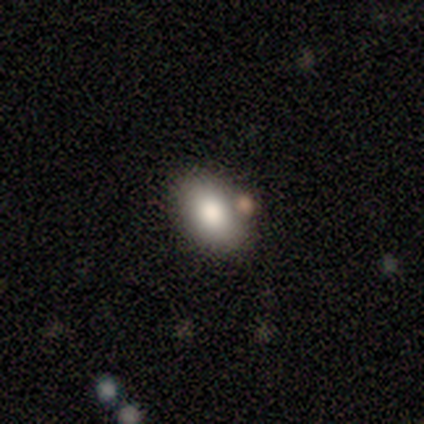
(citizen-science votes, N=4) Morphology: type=smooth (75%); roundness=in between (100%); merging=none (50%).